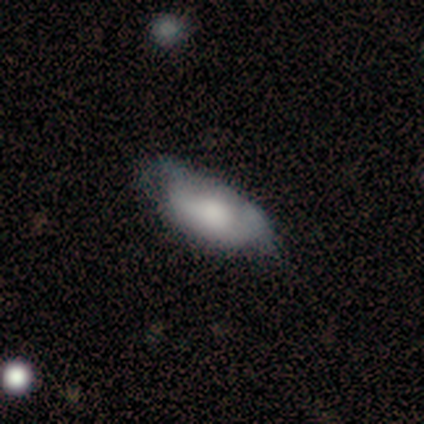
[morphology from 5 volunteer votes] Volunteers were most divided on "smooth or featured": smooth: 60%, star or artifact: 40%, featured or disk: 0%. More confident: how rounded — in between (100%); merging — minor disturbance (67%).